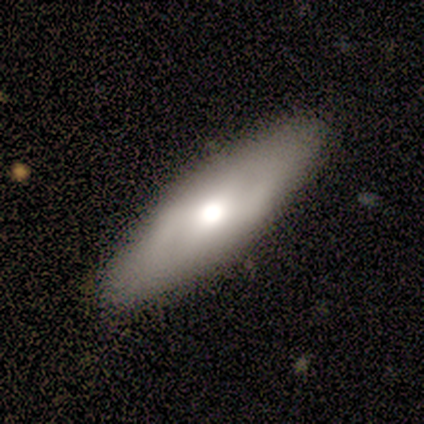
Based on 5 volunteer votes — smooth 100%, featured or disk 0%, star or artifact 0%. Down the decision tree: how rounded — in between (80%); merging — none (100%).